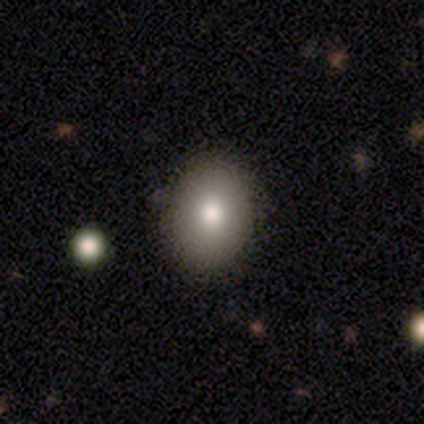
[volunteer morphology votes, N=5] type=smooth (80%); roundness=round (75%); merging=none (75%).